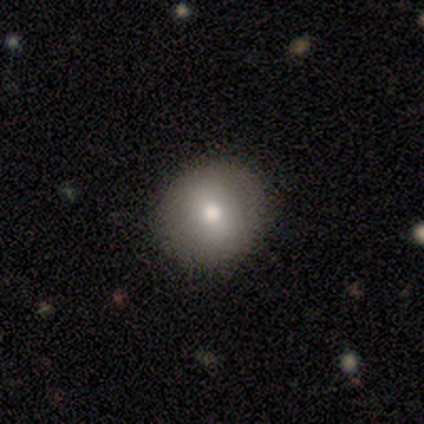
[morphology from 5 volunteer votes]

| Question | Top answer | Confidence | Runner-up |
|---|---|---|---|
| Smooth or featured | smooth | 80% | featured or disk (20%) |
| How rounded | round | 100% | — |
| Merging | none | 80% | minor disturbance (20%) |